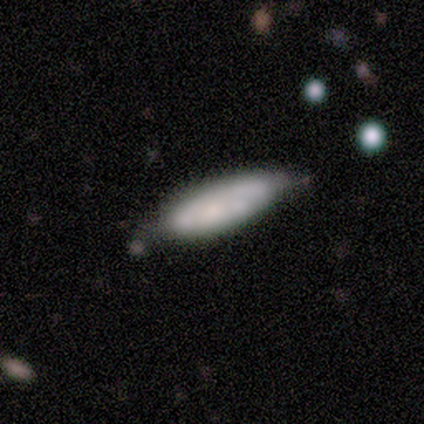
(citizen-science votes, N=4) A smooth galaxy with no disk features (100%) that is cigar-shaped (75%).

Vote fractions:
- Smooth or featured? smooth: 100% / featured or disk: 0% / star or artifact: 0%
- How rounded? cigar-shaped: 75% / in between: 25% / round: 0%
- Merging? minor disturbance: 50% / none: 25% / major disturbance: 25% / merger: 0%